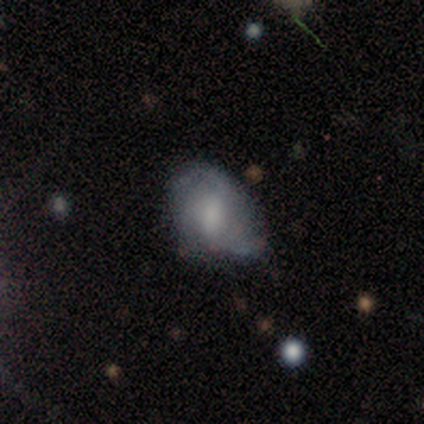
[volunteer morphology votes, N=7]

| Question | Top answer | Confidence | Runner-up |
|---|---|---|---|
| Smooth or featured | featured or disk | 86% | star or artifact (14%) |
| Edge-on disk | no | 100% | — |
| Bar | weak | 50% | no (33%) |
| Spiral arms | yes | 83% | no (17%) |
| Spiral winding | medium | 60% | loose (40%) |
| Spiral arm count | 2 | 100% | — |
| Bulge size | small | 50% | large (33%) |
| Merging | major disturbance | 50% | none (33%) |